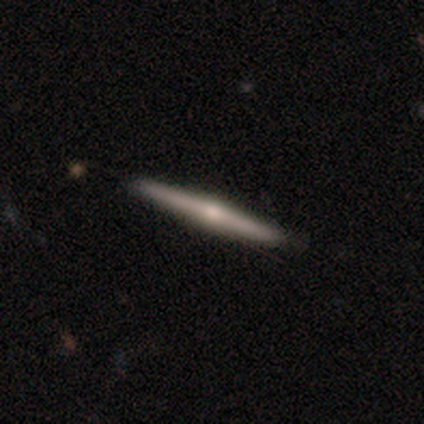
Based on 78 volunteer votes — Q: Smooth or featured?
A: featured or disk (69%); runner-up: smooth (29%)
Q: Edge-on disk?
A: yes (100%)
Q: Edge-on bulge?
A: rounded (87%); runner-up: none (13%)
Q: Merging?
A: none (47%); runner-up: minor disturbance (3%)